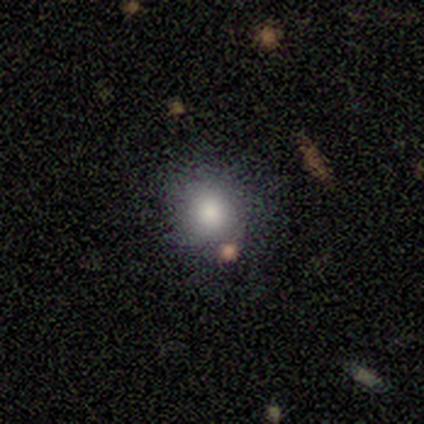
A smooth galaxy with no disk features (92%) that is round (67%). Merging: none (75%).